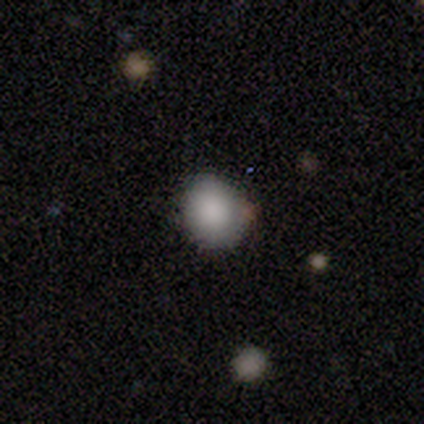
This is clearly a smooth galaxy (86%). How rounded: clearly round (83%). Merging: clearly none (100%).